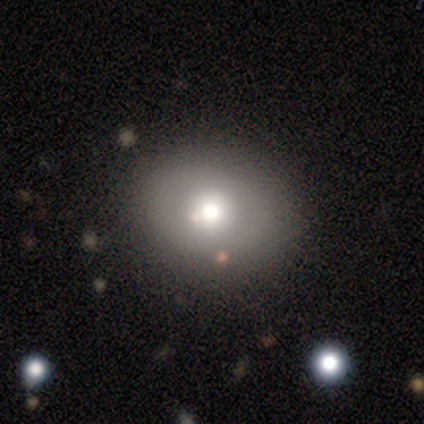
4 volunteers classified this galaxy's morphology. Smooth or featured? smooth (75%)
How rounded? round (100%)
Merging? none (75%)